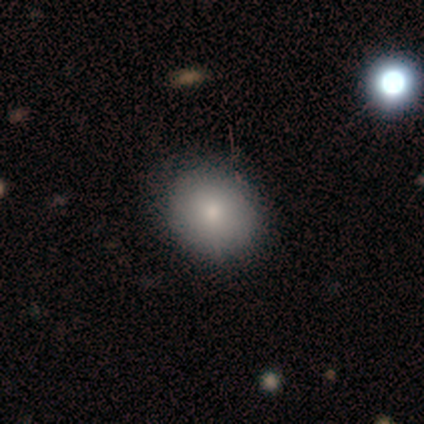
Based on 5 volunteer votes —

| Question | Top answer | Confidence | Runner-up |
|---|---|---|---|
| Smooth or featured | smooth | 100% | — |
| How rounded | round | 60% | in between (40%) |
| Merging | none | 80% | minor disturbance (20%) |